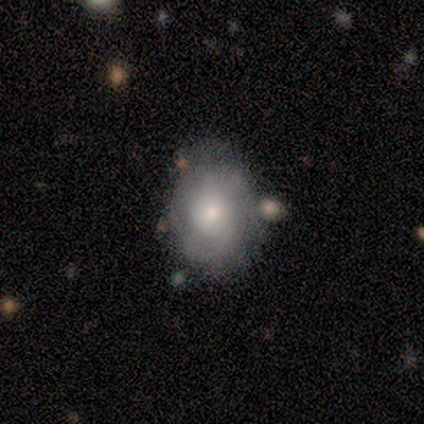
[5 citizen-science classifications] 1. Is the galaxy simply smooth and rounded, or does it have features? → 80% featured or disk, 20% star or artifact, 0% smooth.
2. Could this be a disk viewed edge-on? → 100% no, 0% yes.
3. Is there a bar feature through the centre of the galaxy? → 100% no, 0% strong, 0% weak.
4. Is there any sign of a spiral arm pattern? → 50% yes (tied), 50% no (tied).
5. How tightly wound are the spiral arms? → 50% tight (tied), 50% medium (tied), 0% loose.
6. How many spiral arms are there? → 100% can't tell, 0% 1, 0% 2, 0% 3, 0% 4, 0% more than 4.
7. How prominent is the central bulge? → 75% small, 25% large, 0% dominant, 0% moderate, 0% none.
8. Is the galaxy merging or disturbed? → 75% none, 25% major disturbance, 0% minor disturbance, 0% merger.